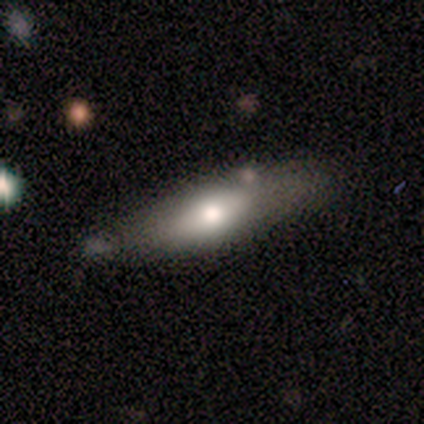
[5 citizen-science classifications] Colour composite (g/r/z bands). It shows a smooth galaxy with no disk features (60%) that is in between round and cigar-shaped (67%). Merging: minor disturbance (60%).